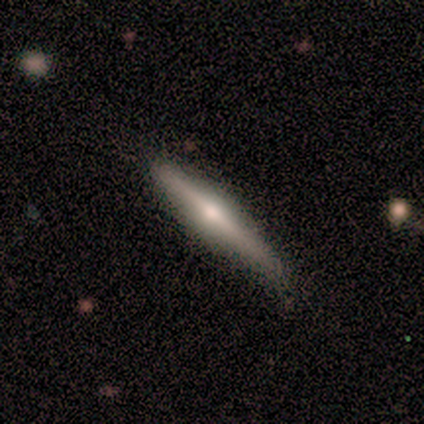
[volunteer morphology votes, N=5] type=featured or disk (60%); edge-on=yes (100%); edge-on bulge=rounded (100%); merging=none (100%).